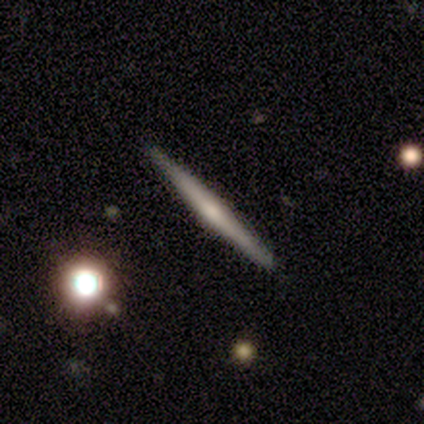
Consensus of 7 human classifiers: smooth_or_featured: smooth (p=0.43) [tied with: featured or disk p=0.43]
how_rounded: cigar-shaped (p=1.00)
merging: none (p=1.00)